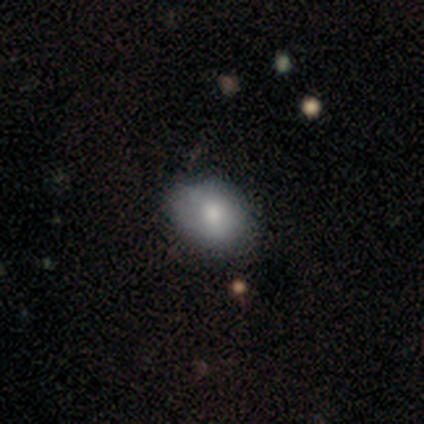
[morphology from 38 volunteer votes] Smooth or featured? smooth (87%)
How rounded? in between (64%)
Merging? none (74%)